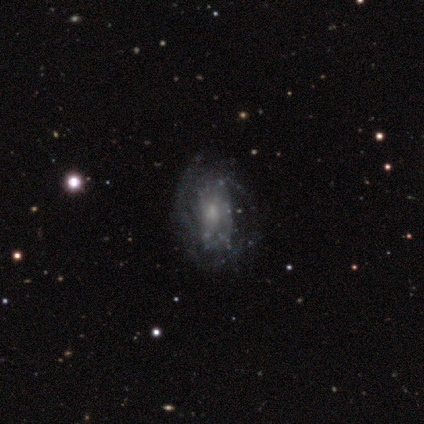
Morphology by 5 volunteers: A featured or disk galaxy (100%) with no bar (60%), no spiral arms (60%) and a small central bulge (80%). Merging: none (60%).